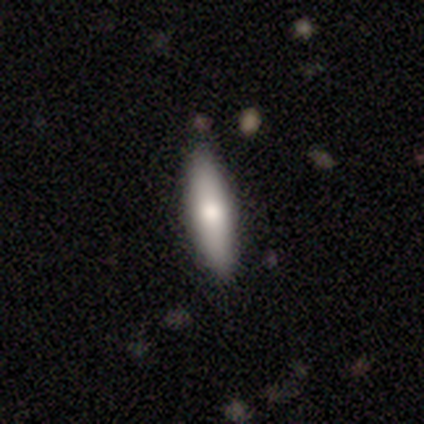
Smooth or featured? 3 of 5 (60%) said smooth. How rounded? 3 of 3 (100%) said cigar-shaped. Merging? 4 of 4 (100%) said none.